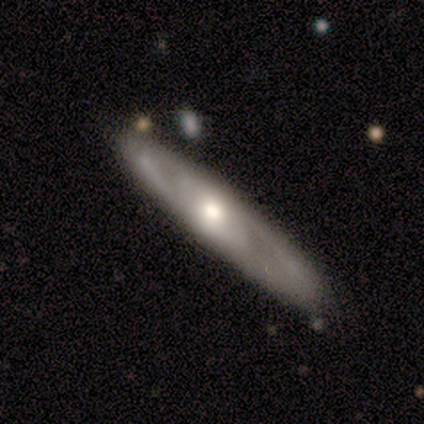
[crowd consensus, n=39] Smooth or featured: featured or disk — 77% (smooth — 21%)
Edge-on disk: no — 73% (yes — 27%)
Bar: no — 77% (strong — 14%)
Spiral arms: yes — 68% (no — 32%)
Spiral winding: medium — 47% (tight — 40%)
Spiral arm count: 2 — 60% (can't tell — 40%)
Bulge size: moderate — 77% (large — 14%)
Merging: none — 61% (minor disturbance — 8%)